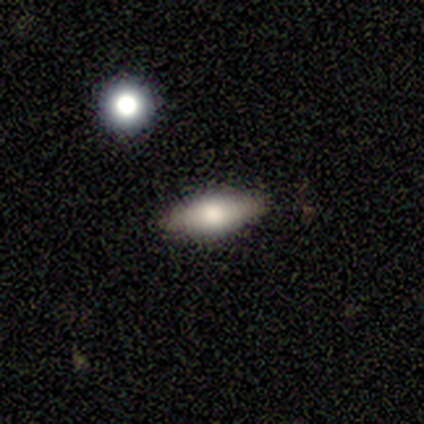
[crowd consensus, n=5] smooth 80%, featured or disk 20%, star or artifact 0%. Down the decision tree: how rounded — in between (100%); merging — none (80%).